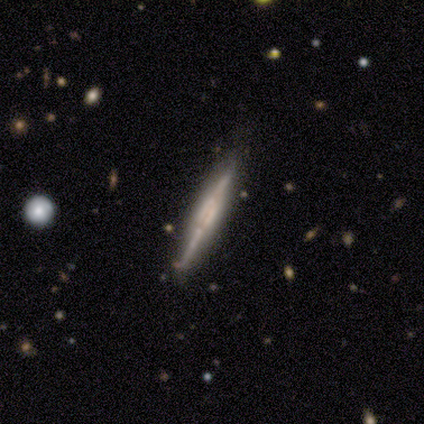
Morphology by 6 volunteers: A featured or disk galaxy (67%) viewed edge-on (100%) with a boxy central bulge (75%). Merging: none (100%).